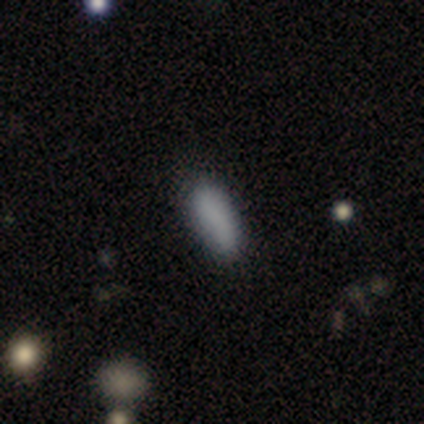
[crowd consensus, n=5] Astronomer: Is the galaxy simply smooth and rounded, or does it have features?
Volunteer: smooth — 60%.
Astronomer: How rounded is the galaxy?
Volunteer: cigar-shaped — 67%.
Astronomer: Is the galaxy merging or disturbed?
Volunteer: none — 50%, tied with minor disturbance at 50%.